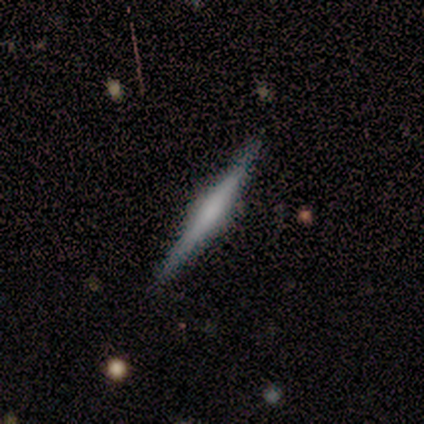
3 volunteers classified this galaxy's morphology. smooth_or_featured: featured or disk (p=0.67) [alt: smooth p=0.33]
disk_edge_on: yes (p=1.00)
edge_on_bulge: rounded (p=1.00)
merging: none (p=1.00)